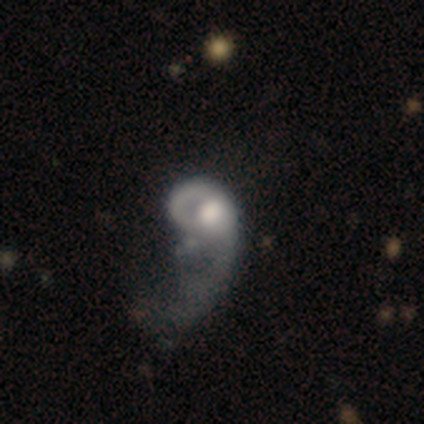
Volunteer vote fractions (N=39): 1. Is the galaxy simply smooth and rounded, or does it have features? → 67% featured or disk, 26% smooth, 8% star or artifact.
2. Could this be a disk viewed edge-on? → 96% no, 4% yes.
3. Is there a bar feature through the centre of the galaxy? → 96% no, 4% weak, 0% strong.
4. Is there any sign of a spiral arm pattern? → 56% no, 44% yes.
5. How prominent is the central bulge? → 40% large (tied), 40% moderate (tied), 12% small, 8% none, 0% dominant.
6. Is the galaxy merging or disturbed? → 61% major disturbance, 6% minor disturbance, 6% merger, 3% none.